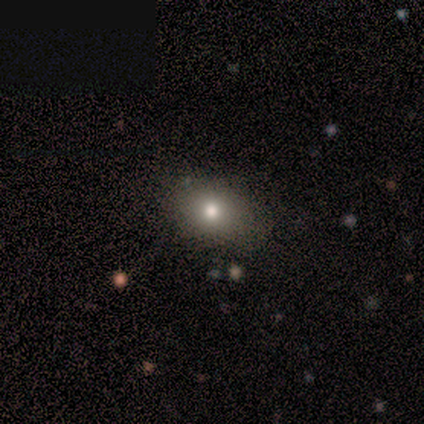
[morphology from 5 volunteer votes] smooth-or-featured: smooth: 60% | featured or disk: 20% | star or artifact: 20%
  how-rounded: in between: 67% | round: 33% | cigar-shaped: 0%
  merging: none: 75% | minor disturbance: 25% | major disturbance: 0% | merger: 0%